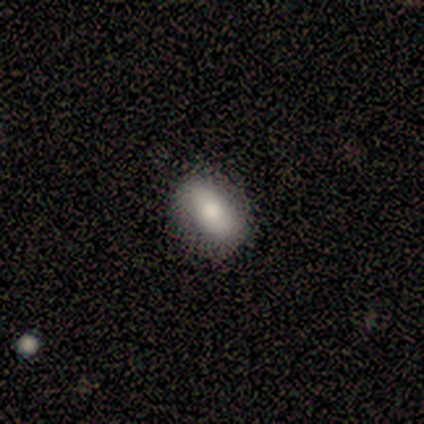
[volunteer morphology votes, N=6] This is clearly a smooth galaxy (83%). How rounded: likely in between (60%). Merging: clearly none (100%).